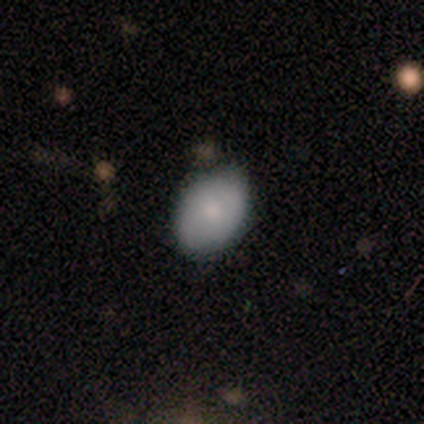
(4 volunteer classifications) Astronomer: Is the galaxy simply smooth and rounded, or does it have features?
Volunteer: smooth — 50%, tied with star or artifact at 50%.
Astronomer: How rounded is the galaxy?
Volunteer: in between — 100%.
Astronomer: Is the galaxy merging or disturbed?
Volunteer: none — 50%, tied with minor disturbance at 50%.